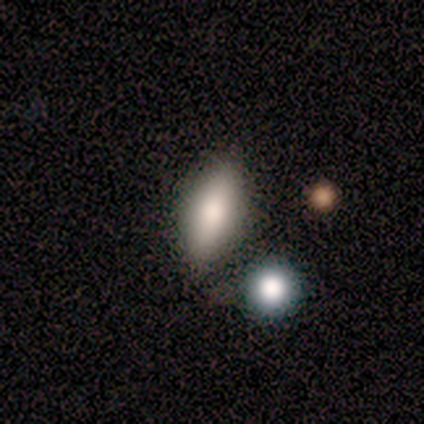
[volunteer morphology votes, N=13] smooth_or_featured: smooth (p=0.77) [alt: star or artifact p=0.15]
how_rounded: in between (p=0.80) [alt: cigar-shaped p=0.20]
merging: none (p=0.82) [alt: minor disturbance p=0.18]